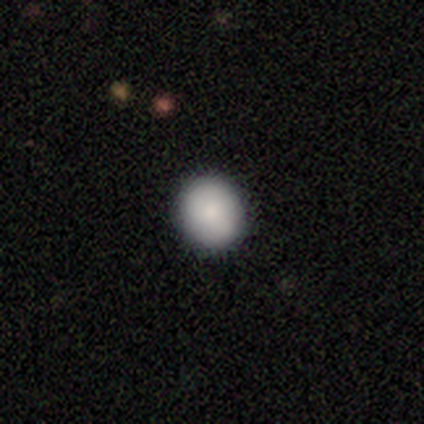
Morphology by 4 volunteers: A smooth galaxy with no disk features (100%) that is round (100%). Merging: none (75%).